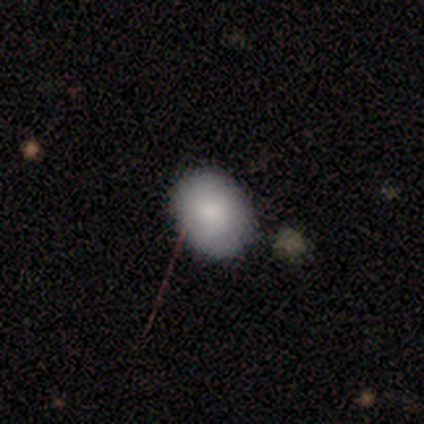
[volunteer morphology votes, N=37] Volunteers were most divided on "how rounded": in between: 70%, round: 30%, cigar-shaped: 0%. More confident: smooth or featured — smooth (89%); merging — none (80%).